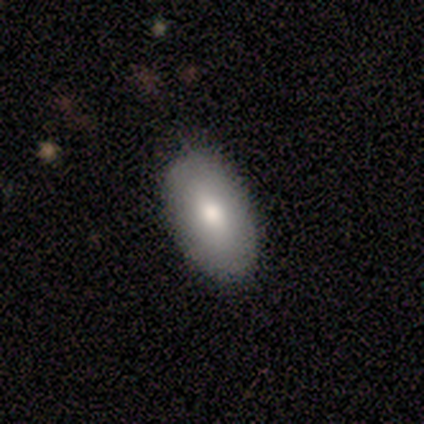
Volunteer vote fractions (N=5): smooth 80%, featured or disk 20%, star or artifact 0%. Down the decision tree: how rounded — in between (100%); merging — none (80%).